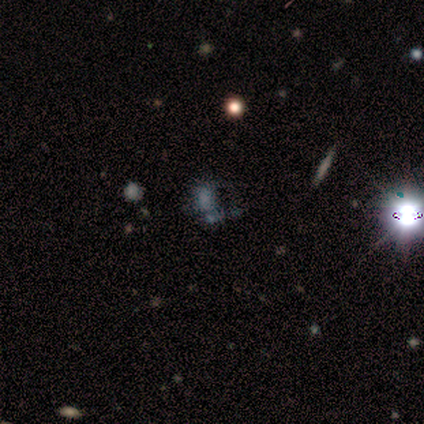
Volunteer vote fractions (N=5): This is marginally a smooth galaxy (40%, tied with star or artifact). How rounded: clearly in between (100%). Merging: clearly merger (100%).